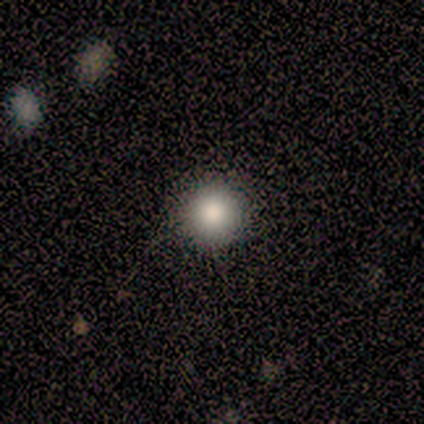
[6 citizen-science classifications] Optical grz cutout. It shows a smooth galaxy with no disk features (83%) that is round (100%). Merging: none (100%).